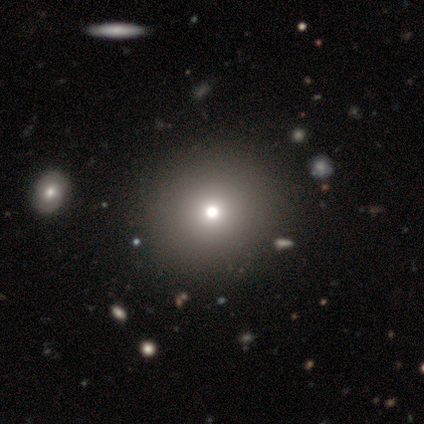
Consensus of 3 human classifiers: This is marginally a smooth galaxy (33%, tied with featured or disk and star or artifact). How rounded: clearly round (100%). Merging: clearly none (100%).